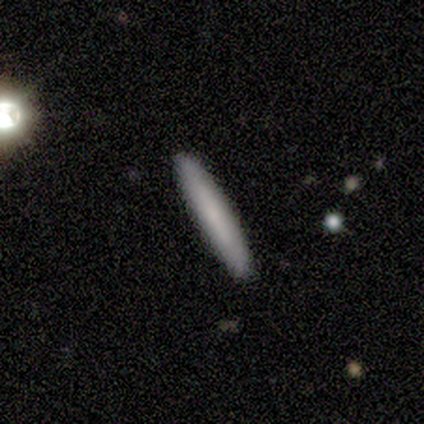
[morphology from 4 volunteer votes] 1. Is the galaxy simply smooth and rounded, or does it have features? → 50% smooth (tied), 50% featured or disk (tied), 0% star or artifact.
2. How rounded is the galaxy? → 100% cigar-shaped, 0% round, 0% in between.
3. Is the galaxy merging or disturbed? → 75% none, 25% minor disturbance, 0% major disturbance, 0% merger.